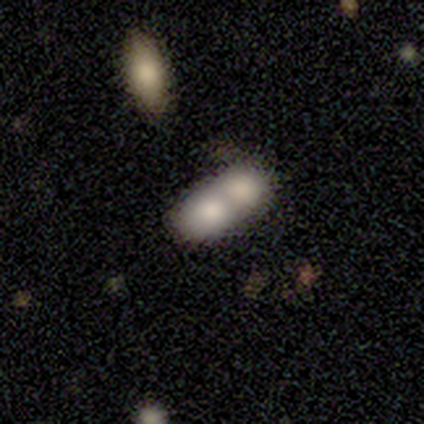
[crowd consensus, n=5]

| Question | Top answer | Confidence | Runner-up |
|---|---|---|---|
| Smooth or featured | smooth | 80% | featured or disk (20%) |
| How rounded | in between | 75% | round (25%) |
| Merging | merger | 80% | none (20%) |